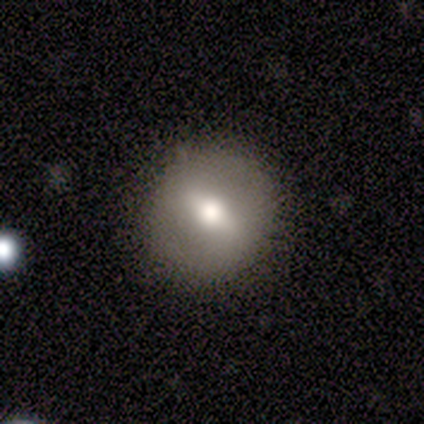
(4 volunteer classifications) Volunteers were most divided on "edge-on disk": no: 67%, yes: 33%. More confident: bar — weak (100%); spiral arms — no (100%); bulge size — large (100%); merging — none (100%); smooth or featured — featured or disk (75%).